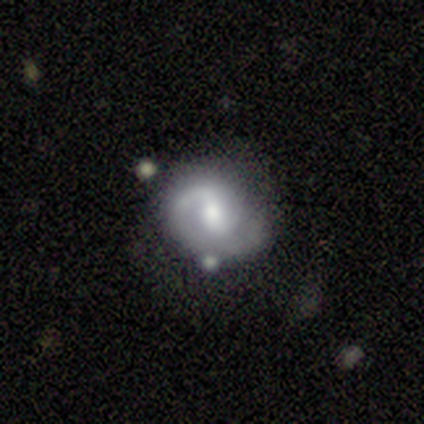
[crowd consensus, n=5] This appears to be a featured or disk galaxy (60%) with a strong bar (33%, tied with weak and no), 2 (100%) medium (50%, tied with loose) spiral arms (67%) and a moderate central bulge (100%). Merging: none (60%).